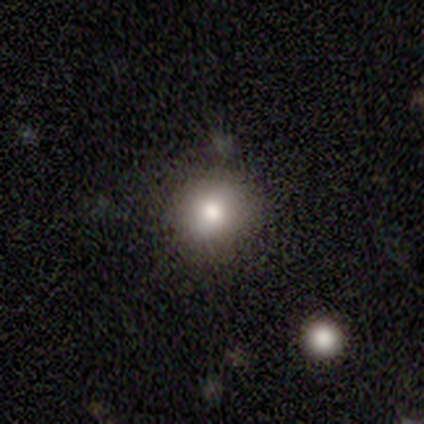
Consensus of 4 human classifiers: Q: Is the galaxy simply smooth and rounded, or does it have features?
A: smooth — 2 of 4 (50%, tied with featured or disk).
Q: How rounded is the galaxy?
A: round — 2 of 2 (100%).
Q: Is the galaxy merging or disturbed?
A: none — 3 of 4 (75%).